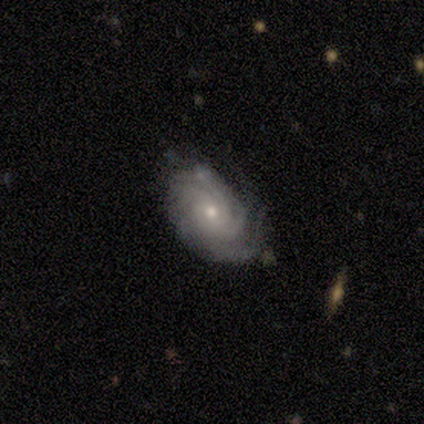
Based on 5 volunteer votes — A featured or disk galaxy (80%) with no bar (75%), 2 (25%, tied with 3, more than 4 and can't tell) tight (100%) spiral arms (100%) and a moderate central bulge (50%, tied with small). Merging: none (50%, tied with minor disturbance).